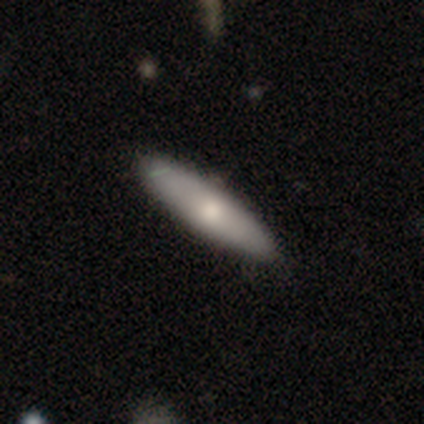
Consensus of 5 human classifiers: Q: Smooth or featured?
A: featured or disk (60%); runner-up: smooth (40%)
Q: Edge-on disk?
A: yes (67%); runner-up: no (33%)
Q: Edge-on bulge?
A: rounded (100%)
Q: Merging?
A: none (100%)